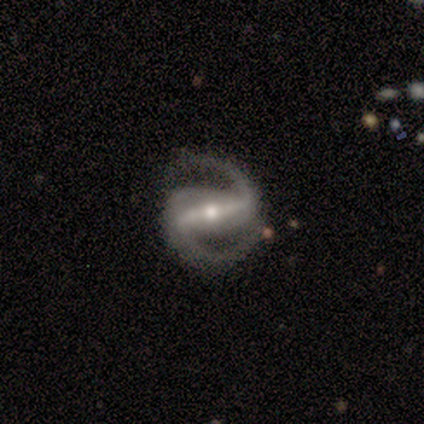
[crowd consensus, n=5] smooth-or-featured: featured or disk: 80% | smooth: 20% | star or artifact: 0%
  disk-edge-on: no: 75% | yes: 25%
    bar: strong: 33% (tied) | weak: 33% (tied) | no: 33% (tied)
    has-spiral-arms: yes: 100% | no: 0%
      spiral-winding: medium: 67% | tight: 33% | loose: 0%
      spiral-arm-count: 2: 100% | 1: 0% | 3: 0% | 4: 0% | more than 4: 0% | can't tell: 0%
    bulge-size: small: 67% | moderate: 33% | dominant: 0% | large: 0% | none: 0%
  merging: minor disturbance: 60% | none: 40% | major disturbance: 0% | merger: 0%